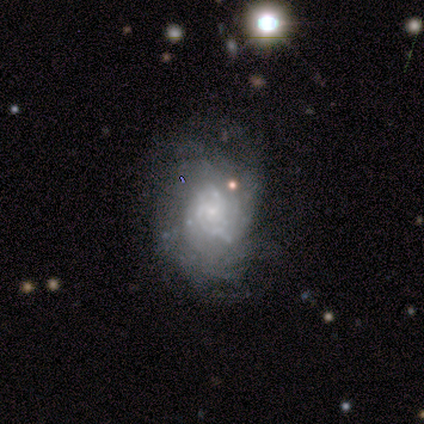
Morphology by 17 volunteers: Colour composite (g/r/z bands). It shows a featured or disk galaxy (82%) with no bar (64%), medium (42%) spiral arms (86%) and a small central bulge (71%). Merging: none (59%).